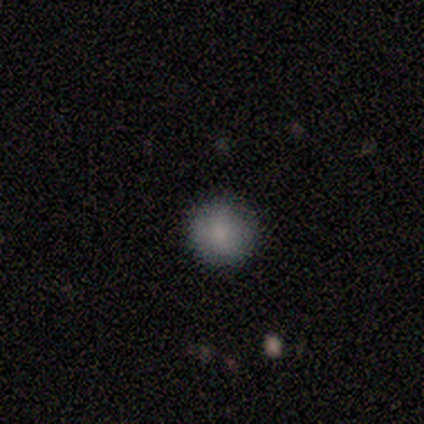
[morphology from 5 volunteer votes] This is likely a smooth galaxy (60%). How rounded: likely round (67%). Merging: clearly none (100%).